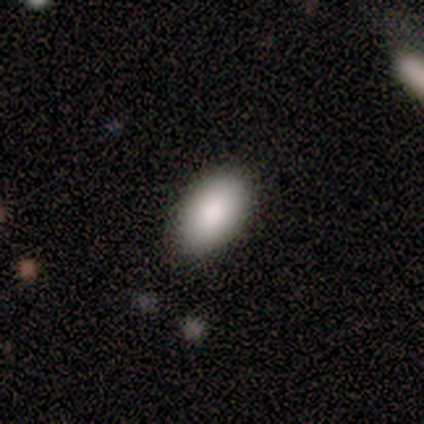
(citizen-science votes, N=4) Smooth or featured? 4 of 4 (100%) said smooth. How rounded? 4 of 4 (100%) said in between. Merging? 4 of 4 (100%) said none.